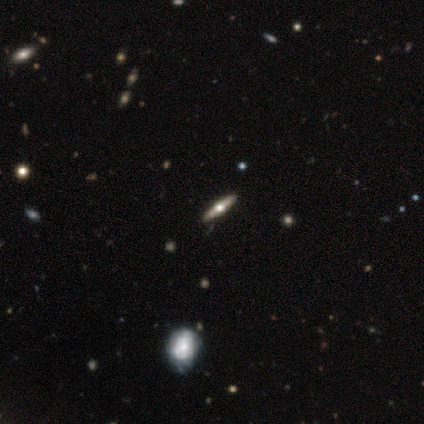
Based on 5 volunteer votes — Smooth or featured? 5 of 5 (100%) said featured or disk. Edge-on disk? 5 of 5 (100%) said yes. Edge-on bulge? 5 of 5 (100%) said rounded. Merging? 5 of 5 (100%) said none.